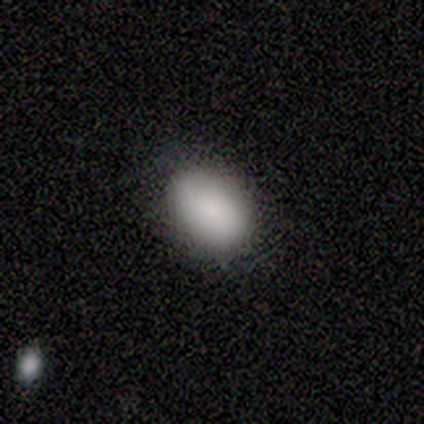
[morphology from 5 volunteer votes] Q: Smooth or featured?
A: smooth (80%); runner-up: star or artifact (20%)
Q: How rounded?
A: in between (100%)
Q: Merging?
A: none (75%); runner-up: minor disturbance (25%)